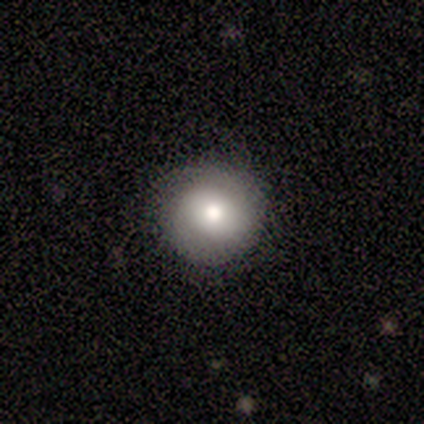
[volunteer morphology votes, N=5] This appears to be a smooth galaxy with no disk features (100%) that is round (100%). Merging: none (80%).